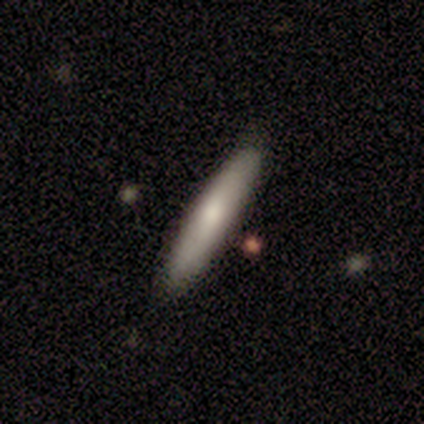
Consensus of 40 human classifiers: smooth_or_featured: smooth (p=0.62) [alt: featured or disk p=0.28]
how_rounded: cigar-shaped (p=1.00)
merging: none (p=0.81) [alt: minor disturbance p=0.08]